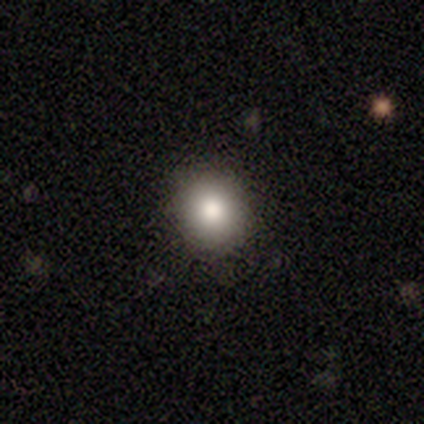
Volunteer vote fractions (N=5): Overall: smooth (100%). How rounded: round (100%). Merging: none (80%).